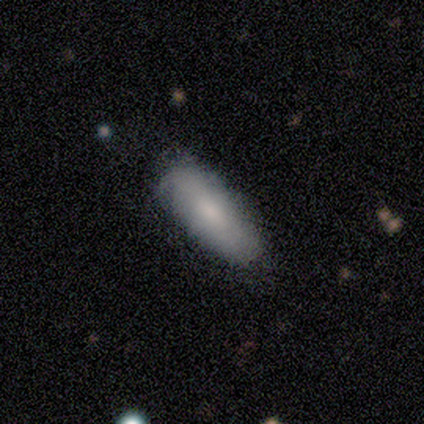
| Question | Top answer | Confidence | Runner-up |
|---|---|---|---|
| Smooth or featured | smooth | 68% | featured or disk (30%) |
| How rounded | in between | 70% | cigar-shaped (30%) |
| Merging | none | 49% | minor disturbance (21%) |